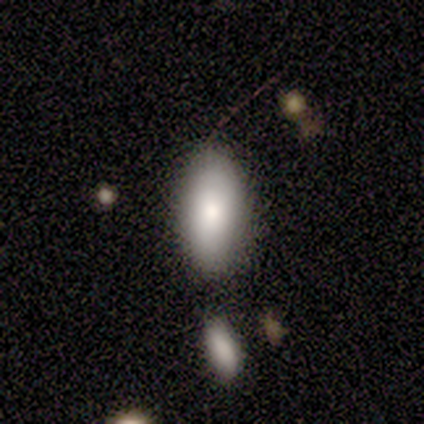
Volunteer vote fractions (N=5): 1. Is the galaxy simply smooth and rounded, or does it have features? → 80% smooth, 20% featured or disk, 0% star or artifact.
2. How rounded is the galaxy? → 100% in between, 0% round, 0% cigar-shaped.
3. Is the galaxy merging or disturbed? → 60% none, 40% minor disturbance, 0% major disturbance, 0% merger.